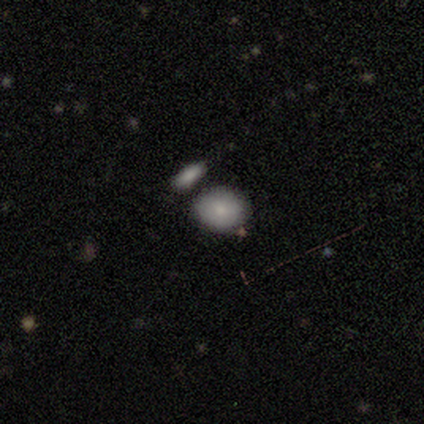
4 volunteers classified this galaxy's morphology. Smooth or featured? 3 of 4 (75%) said smooth. How rounded? 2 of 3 (67%) said in between. Merging? 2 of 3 (67%) said none.